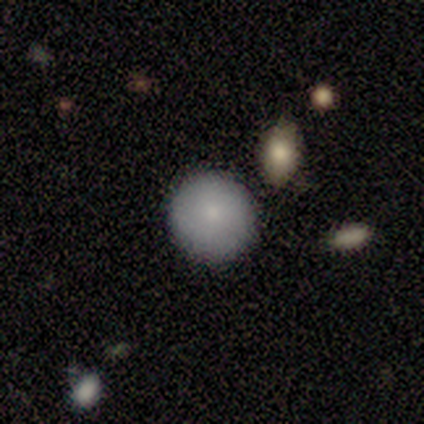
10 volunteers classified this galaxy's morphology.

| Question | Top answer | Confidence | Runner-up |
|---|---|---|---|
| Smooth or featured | smooth | 90% | star or artifact (10%) |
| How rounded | round | 89% | in between (11%) |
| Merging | none | 89% | minor disturbance (11%) |